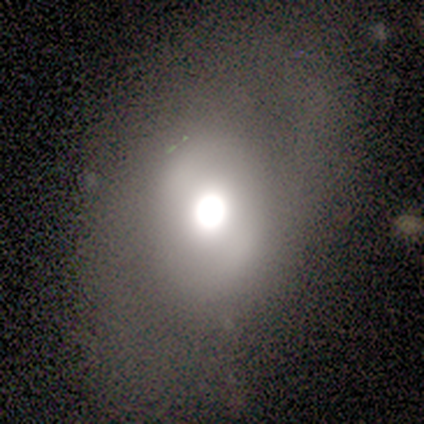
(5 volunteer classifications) smooth 40% (tied), star or artifact 40% (tied), featured or disk 20%. Down the decision tree: how rounded — round (100%); merging — none (100%).